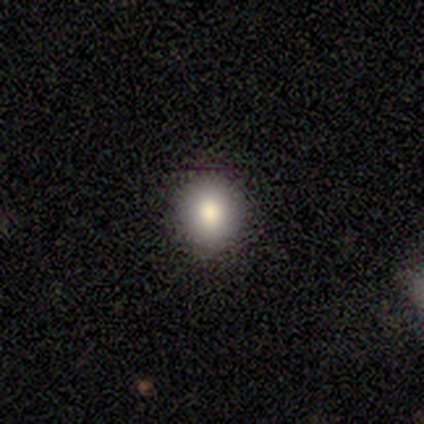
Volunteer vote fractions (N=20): This is clearly a smooth galaxy (80%). How rounded: likely round (69%). Merging: clearly none (89%).